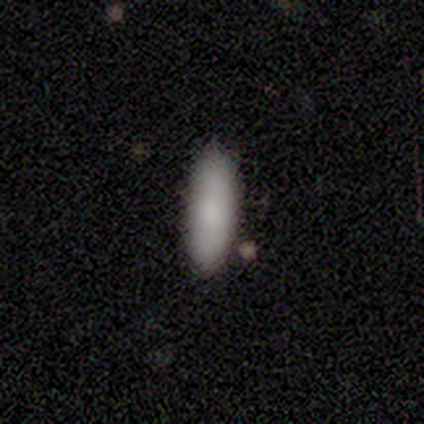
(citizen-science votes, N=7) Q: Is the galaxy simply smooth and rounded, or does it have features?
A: smooth — 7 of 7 (100%).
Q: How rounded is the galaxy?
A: in between — 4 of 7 (57%).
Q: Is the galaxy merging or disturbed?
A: none — 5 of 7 (71%).